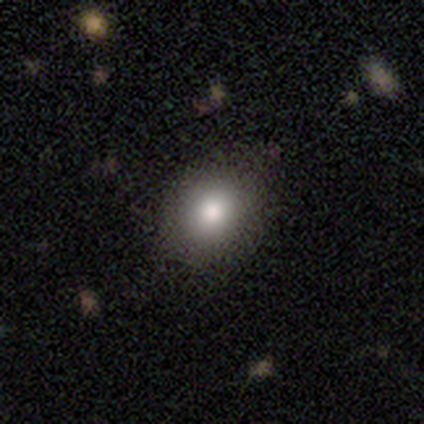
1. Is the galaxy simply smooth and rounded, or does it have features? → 92% smooth, 5% featured or disk, 2% star or artifact.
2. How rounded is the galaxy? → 68% round, 32% in between, 0% cigar-shaped.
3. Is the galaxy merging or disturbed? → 90% none, 3% minor disturbance, 0% major disturbance, 0% merger.